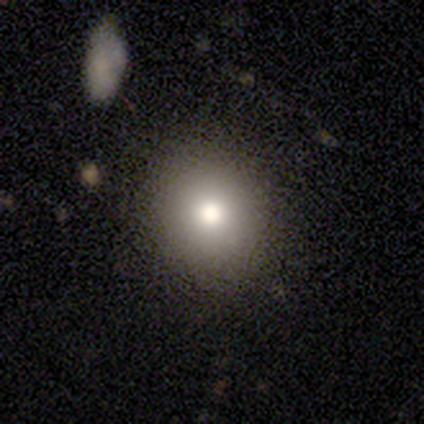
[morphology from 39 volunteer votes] A smooth galaxy with no disk features (79%) that is round (97%).

Vote fractions:
- Smooth or featured? smooth: 79% / star or artifact: 13% / featured or disk: 8%
- How rounded? round: 97% / in between: 3% / cigar-shaped: 0%
- Merging? none: 94% / minor disturbance: 3% / major disturbance: 3% / merger: 0%